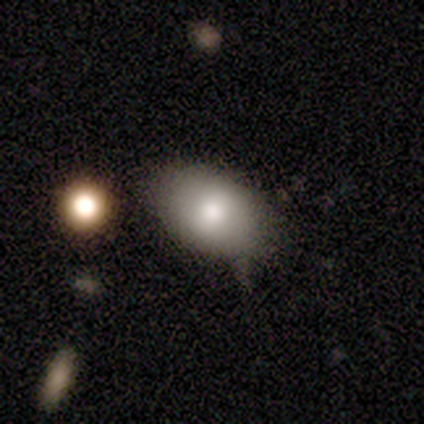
smooth_or_featured: smooth (p=0.79) [alt: featured or disk p=0.15]
how_rounded: in between (p=0.87) [alt: round p=0.13]
merging: none (p=0.68) [alt: minor disturbance p=0.27]